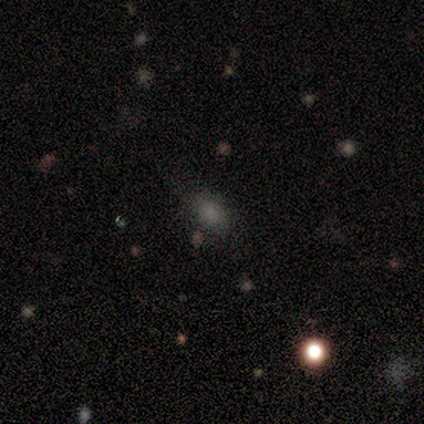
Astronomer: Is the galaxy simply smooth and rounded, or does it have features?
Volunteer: smooth — 75%.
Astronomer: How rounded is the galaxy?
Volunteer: in between — 100%.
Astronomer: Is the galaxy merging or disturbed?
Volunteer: none — 67%.